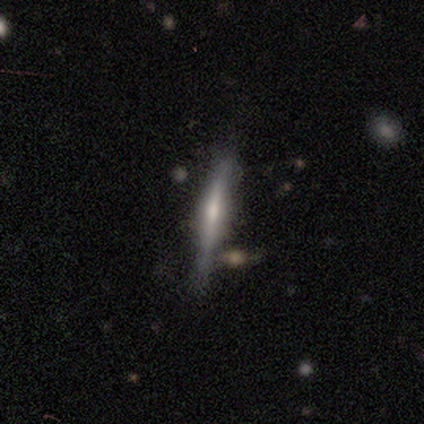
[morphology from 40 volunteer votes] type=featured or disk (70%); edge-on=yes (96%); edge-on bulge=rounded (56%); merging=none (62%).